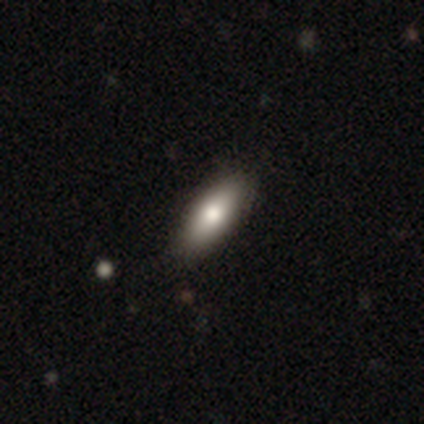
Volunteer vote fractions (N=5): Overall: smooth (80%). How rounded: in between (75%). Merging: none (100%).